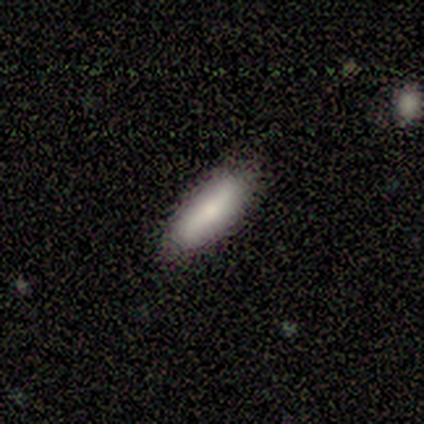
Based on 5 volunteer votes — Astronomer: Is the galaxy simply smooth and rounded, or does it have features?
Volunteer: smooth — 100%.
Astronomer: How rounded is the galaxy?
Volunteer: in between — 60%.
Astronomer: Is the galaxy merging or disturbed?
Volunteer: none — 100%.